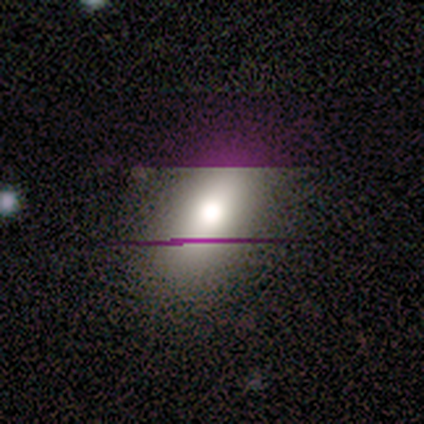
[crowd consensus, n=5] Smooth or featured? 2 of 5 (40%, tied with star or artifact) said featured or disk. Edge-on disk? 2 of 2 (100%) said no. Bar? 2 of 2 (100%) said no. Spiral arms? 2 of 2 (100%) said no. Bulge size? 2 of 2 (100%) said moderate. Merging? 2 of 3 (67%) said none.